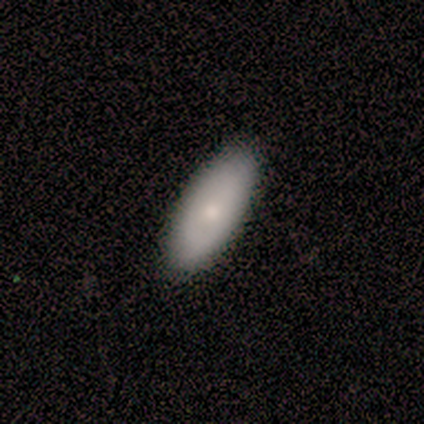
Overall: smooth (80%). How rounded: in between (75%). Merging: none (100%).